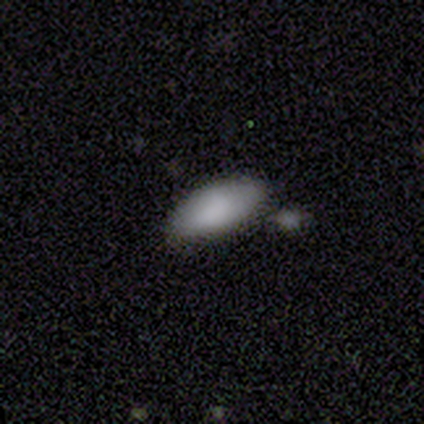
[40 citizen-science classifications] smooth-or-featured: smooth: 98% | featured or disk: 2% | star or artifact: 0%
  how-rounded: in between: 82% | cigar-shaped: 18% | round: 0%
  merging: none: 78% | minor disturbance: 15% | merger: 5% | major disturbance: 2%